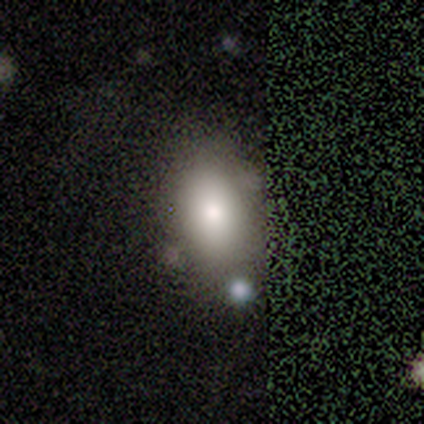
Overall: smooth (60%; featured or disk 40%). How rounded: in between (100%). Merging: none (80%).